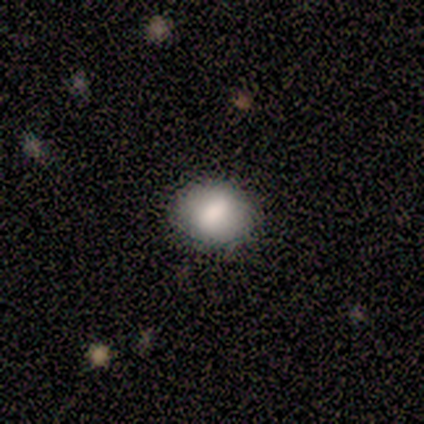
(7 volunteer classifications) Smooth or featured? smooth (86%)
How rounded? in between (83%)
Merging? none (100%)